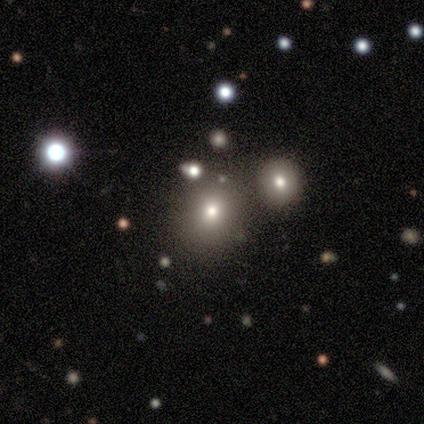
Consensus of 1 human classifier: Smooth or featured?
  - smooth: 100% *
  - featured or disk: 0%
  - star or artifact: 0%
How rounded?
  - round: 100% *
  - in between: 0%
  - cigar-shaped: 0%
Merging?
  - merger: 100% *
  - none: 0%
  - minor disturbance: 0%
  - major disturbance: 0%